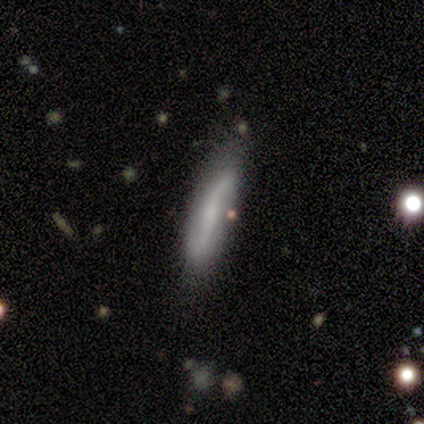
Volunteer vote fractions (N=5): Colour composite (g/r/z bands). It shows a featured or disk galaxy (60%) with a strong bar (50%, tied with no), 2 (100%) medium (50%, tied with loose) spiral arms (100%) and a moderate central bulge (50%, tied with none). Merging: none (50%).